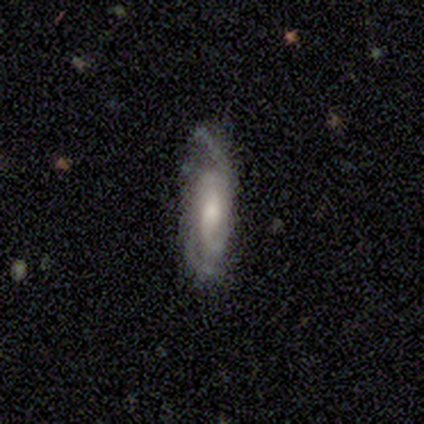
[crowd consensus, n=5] Smooth or featured?
  - featured or disk: 80% *
  - smooth: 20%
  - star or artifact: 0%
Edge-on disk?
  - no: 100% *
  - yes: 0%
Bar?
  - weak: 50% * (tied)
  - no: 50% * (tied)
  - strong: 0%
Spiral arms?
  - yes: 100% *
  - no: 0%
Spiral winding?
  - medium: 50% *
  - tight: 25%
  - loose: 25%
Spiral arm count?
  - 2: 25% * (tied)
  - 3: 25% * (tied)
  - 4: 25% * (tied)
  - can't tell: 25% * (tied)
  - 1: 0%
  - more than 4: 0%
Bulge size?
  - moderate: 75% *
  - small: 25%
  - dominant: 0%
  - large: 0%
  - none: 0%
Merging?
  - none: 100% *
  - minor disturbance: 0%
  - major disturbance: 0%
  - merger: 0%